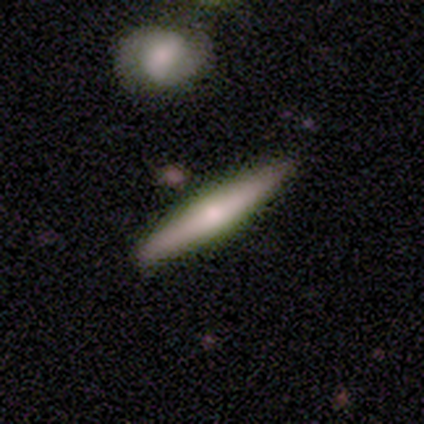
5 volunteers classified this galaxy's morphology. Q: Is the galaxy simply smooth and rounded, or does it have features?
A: smooth — 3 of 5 (60%).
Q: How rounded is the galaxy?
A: cigar-shaped — 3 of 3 (100%).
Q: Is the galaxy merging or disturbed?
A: none — 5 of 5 (100%).